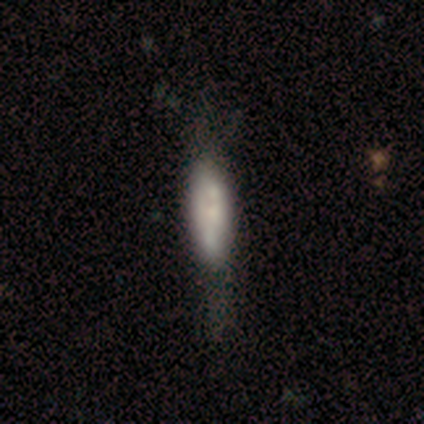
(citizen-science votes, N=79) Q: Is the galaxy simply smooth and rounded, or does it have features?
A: smooth — 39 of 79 (49%).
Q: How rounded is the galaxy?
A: in between — 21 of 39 (54%).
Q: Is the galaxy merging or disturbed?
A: none — 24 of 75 (32%).